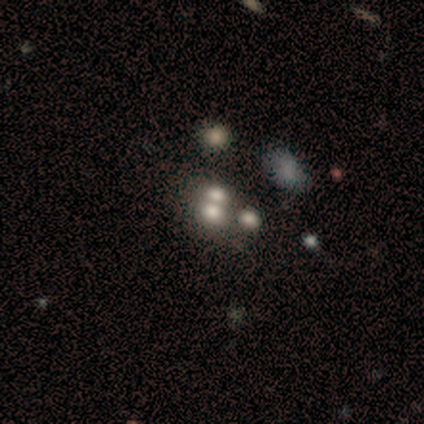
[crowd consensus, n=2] Volunteers were most divided on "smooth or featured" (2-way tie): smooth: 50%, featured or disk: 50%, star or artifact: 0%; "merging" (2-way tie): none: 50%, merger: 50%, minor disturbance: 0%, major disturbance: 0%. More confident: how rounded — in between (100%).